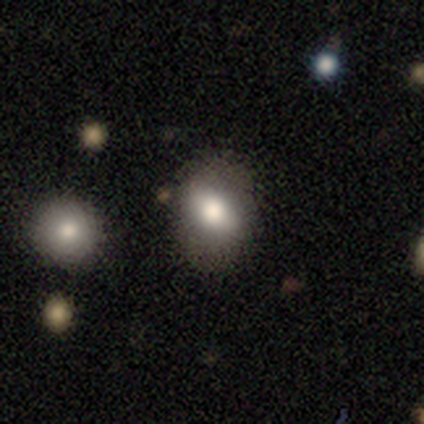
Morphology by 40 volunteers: This appears to be a smooth galaxy with no disk features (80%) that is in between round and cigar-shaped (72%). Merging: none (72%).